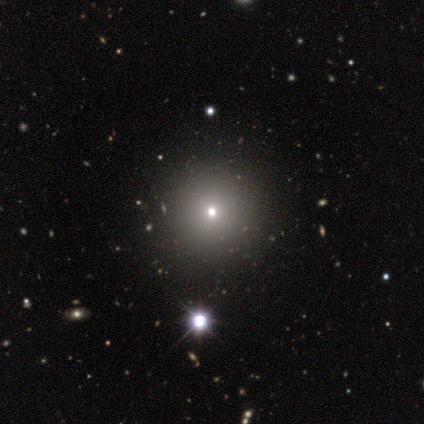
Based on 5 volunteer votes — Smooth or featured: smooth — 80% (featured or disk — 20%)
How rounded: round — 75% (in between — 25%)
Merging: none — 80% (minor disturbance — 20%)